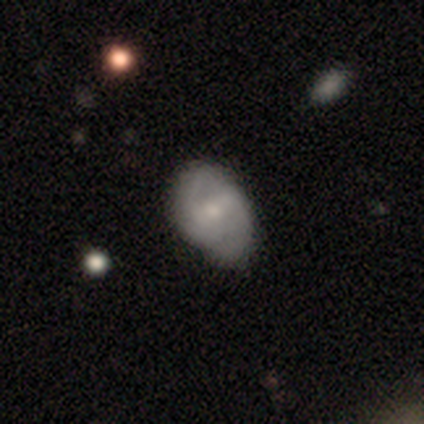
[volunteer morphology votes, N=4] smooth-or-featured: star or artifact: 75% | featured or disk: 25% | smooth: 0%